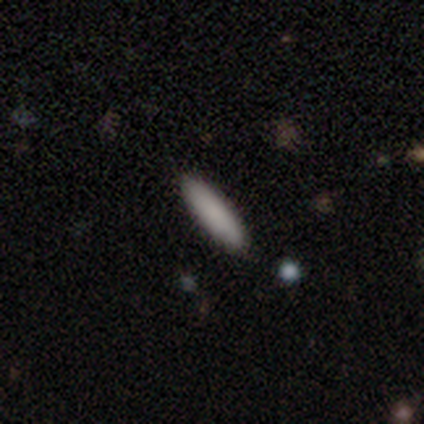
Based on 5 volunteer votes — A smooth galaxy with no disk features (60%) that is in between round and cigar-shaped (67%). Merging: none (60%).